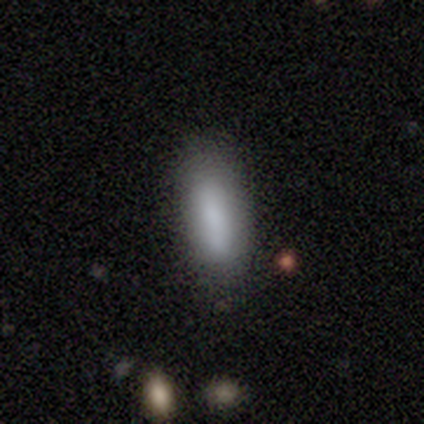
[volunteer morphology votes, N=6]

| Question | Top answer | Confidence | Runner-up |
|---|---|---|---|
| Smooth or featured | smooth | 83% | star or artifact (17%) |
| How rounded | in between | 80% | cigar-shaped (20%) |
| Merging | minor disturbance | 60% | none (40%) |